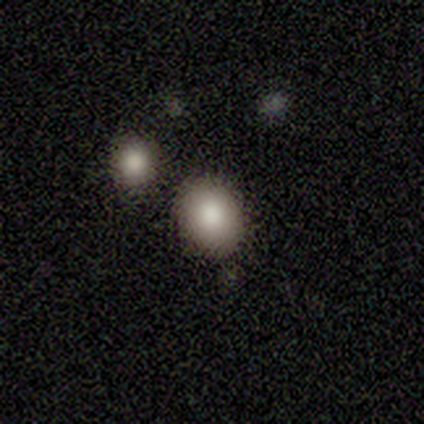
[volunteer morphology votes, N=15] type=smooth (80%); roundness=round (67%); merging=none (71%).